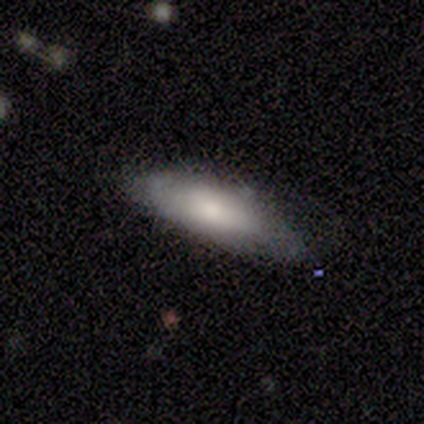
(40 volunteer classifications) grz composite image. It shows a smooth galaxy with no disk features (85%) that is in between round and cigar-shaped (68%). Merging: none (68%).